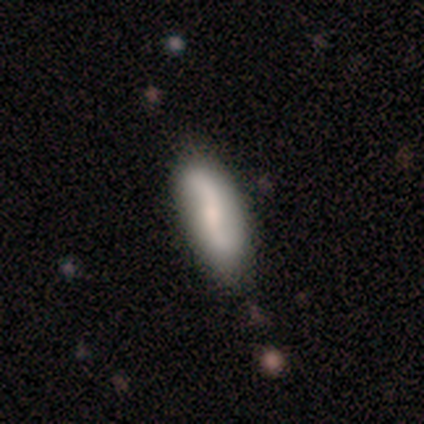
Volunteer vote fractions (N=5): This appears to be a smooth galaxy with no disk features (60%) that is in between round and cigar-shaped (67%). Merging: none (100%).